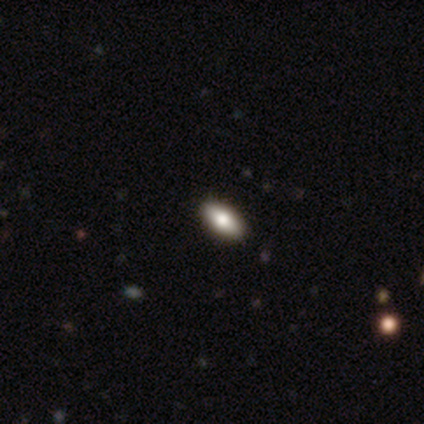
This appears to be a smooth galaxy with no disk features (75%) that is in between round and cigar-shaped (100%). Merging: none (88%).